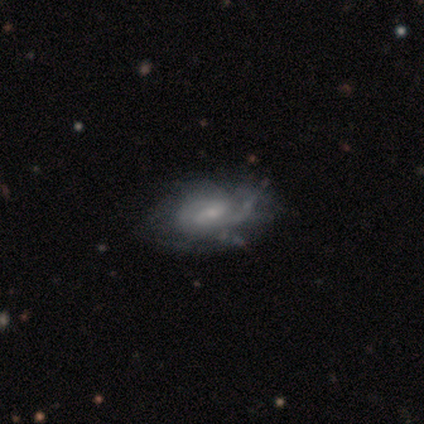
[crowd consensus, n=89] Smooth or featured? 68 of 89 (76%) said featured or disk. Edge-on disk? 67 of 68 (99%) said no. Bar? 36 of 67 (54%) said weak. Spiral arms? 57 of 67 (85%) said yes. Spiral winding? 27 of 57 (47%) said medium. Spiral arm count? 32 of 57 (56%) said 2. Bulge size? 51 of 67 (76%) said small. Merging? 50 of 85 (59%) said none.